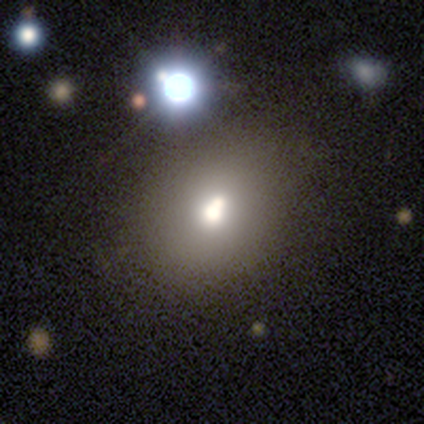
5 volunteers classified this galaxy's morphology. smooth_or_featured: smooth (p=0.80) [alt: star or artifact p=0.20]
how_rounded: round (p=0.50) [tied with: in between p=0.50]
merging: none (p=0.50) [tied with: merger p=0.50]